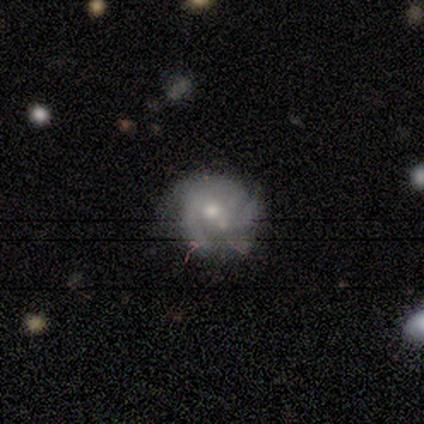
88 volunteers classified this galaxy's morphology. featured or disk 66%, smooth 18%, star or artifact 16%. Down the decision tree: edge-on disk — no (100%); bar — no (64%); spiral arms — yes (84%); spiral arm count — 3 (47%); spiral winding — medium (45%); bulge size — moderate (53%); merging — none (51%).